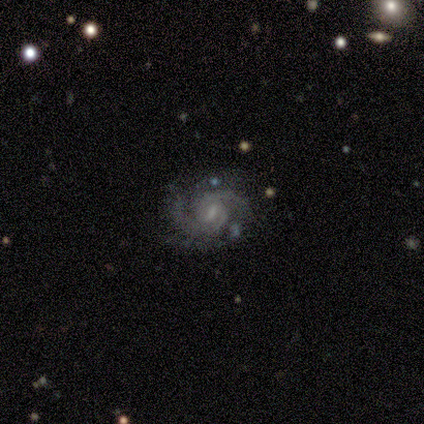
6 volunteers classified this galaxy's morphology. This is clearly a featured or disk galaxy (100%). It is clearly not viewed edge-on (100%). Bar: likely weak (67%). Spiral arm pattern: clearly yes (100%). Spiral arm count: possibly 2 (50%). Spiral winding: possibly medium (50%). Central bulge: likely small (67%). Merging: likely none (67%).